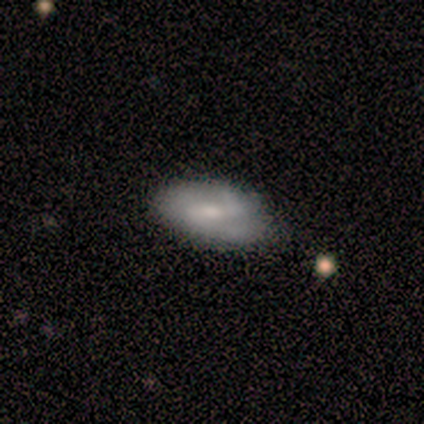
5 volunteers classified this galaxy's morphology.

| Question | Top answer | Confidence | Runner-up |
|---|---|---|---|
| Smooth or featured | featured or disk | 100% | — |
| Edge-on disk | no | 100% | — |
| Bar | strong | 60% | weak (40%) |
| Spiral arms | yes | 100% | — |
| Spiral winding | medium | 60% | tight (20%) |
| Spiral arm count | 2 | 100% | — |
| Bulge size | moderate | 40% | tied: small (40%) |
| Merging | none | 80% | minor disturbance (20%) |